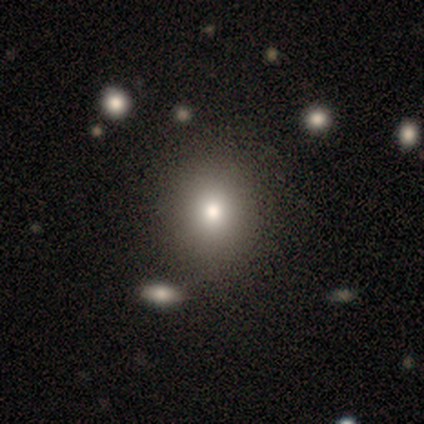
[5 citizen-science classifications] smooth_or_featured: smooth (p=0.60) [alt: featured or disk p=0.40]
how_rounded: round (p=0.67) [alt: in between p=0.33]
merging: none (p=1.00)